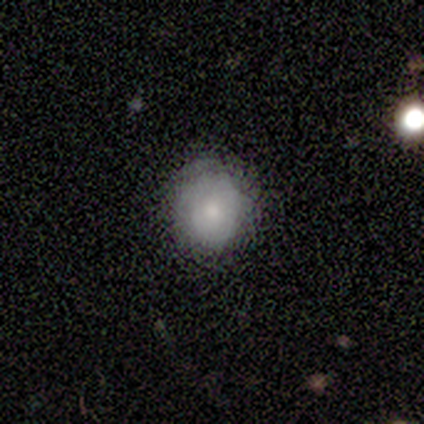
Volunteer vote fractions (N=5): featured or disk 80%, smooth 20%, star or artifact 0%. Down the decision tree: edge-on disk — no (75%); bar — no (67%); spiral arms — yes (100%); spiral arm count — can't tell (67%); spiral winding — tight (100%); bulge size — moderate (100%); merging — none (60%).